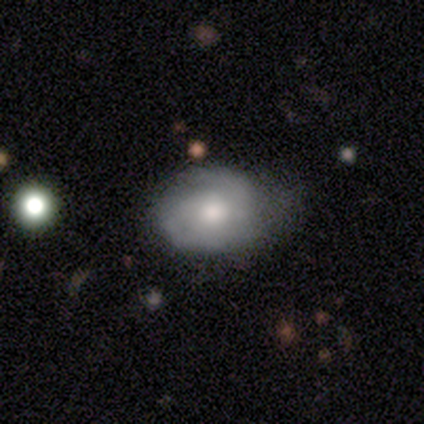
A featured or disk galaxy (60%) with no bar (83%), 2 (80%) tight (60%) spiral arms (83%) and a moderate central bulge (50%).

Vote fractions:
- Smooth or featured? featured or disk: 60% / smooth: 40% / star or artifact: 0%
- Edge-on disk? no: 100% / yes: 0%
- Bar? no: 83% / strong: 17% / weak: 0%
- Spiral arms? yes: 83% / no: 17%
- Spiral winding? tight: 60% / medium: 40% / loose: 0%
- Spiral arm count? 2: 80% / can't tell: 20% / 1: 0% / 3: 0% / 4: 0% / more than 4: 0%
- Bulge size? moderate: 50% / small: 33% / none: 17% / dominant: 0% / large: 0%
- Merging? none: 50% (tied) / minor disturbance: 50% (tied) / major disturbance: 0% / merger: 0%